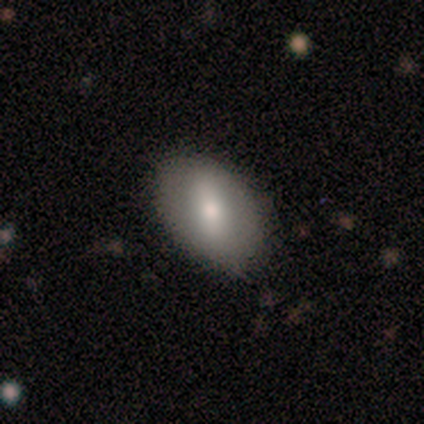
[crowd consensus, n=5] This is clearly a smooth galaxy (100%). How rounded: likely in between (60%). Merging: likely none (60%).